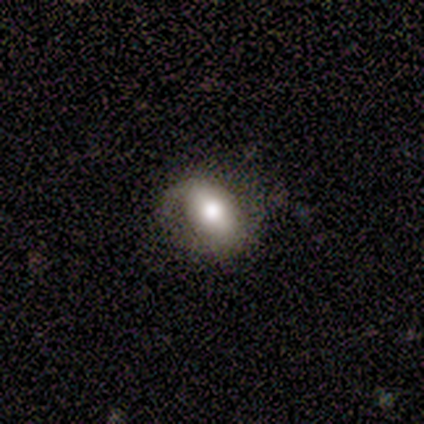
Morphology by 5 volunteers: A smooth galaxy with no disk features (60%) that is in between round and cigar-shaped (67%). Merging: none (60%).